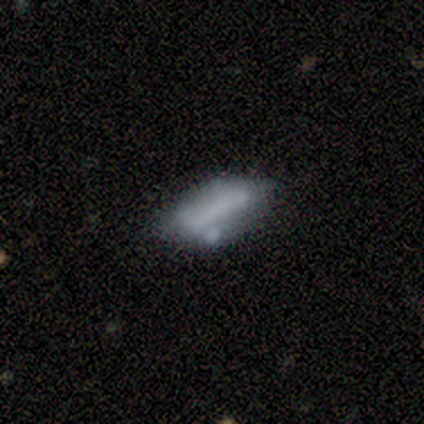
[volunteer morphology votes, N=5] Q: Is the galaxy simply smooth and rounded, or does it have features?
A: smooth — 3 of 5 (60%).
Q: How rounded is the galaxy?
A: in between — 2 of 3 (67%).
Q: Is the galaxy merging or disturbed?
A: minor disturbance — 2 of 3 (67%).